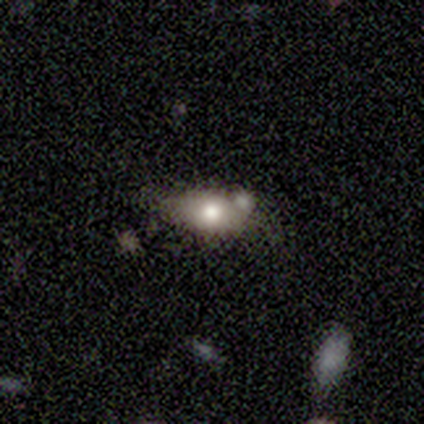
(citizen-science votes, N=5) smooth-or-featured: smooth: 80% | star or artifact: 20% | featured or disk: 0%
  how-rounded: in between: 75% | round: 25% | cigar-shaped: 0%
  merging: none: 50% | major disturbance: 25% | merger: 25% | minor disturbance: 0%